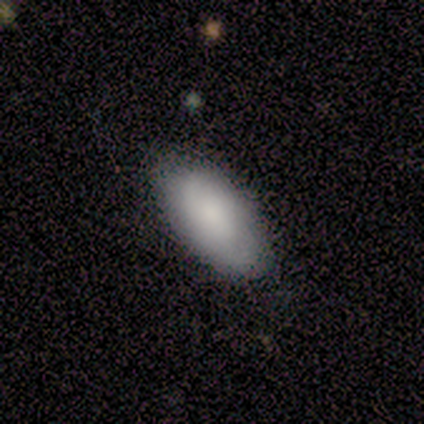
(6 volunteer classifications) Q: Smooth or featured?
A: smooth (100%)
Q: How rounded?
A: in between (100%)
Q: Merging?
A: none (100%)